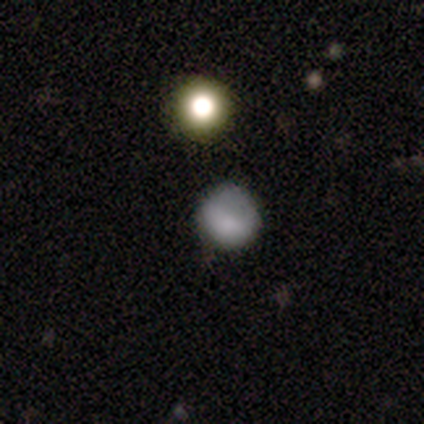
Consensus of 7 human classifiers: smooth_or_featured: smooth (p=1.00)
how_rounded: round (p=0.86) [alt: in between p=0.14]
merging: none (p=0.86) [alt: merger p=0.14]